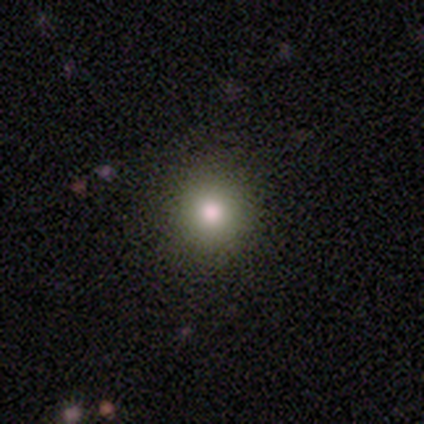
smooth 100%, featured or disk 0%, star or artifact 0%. Down the decision tree: how rounded — round (100%); merging — none (100%).